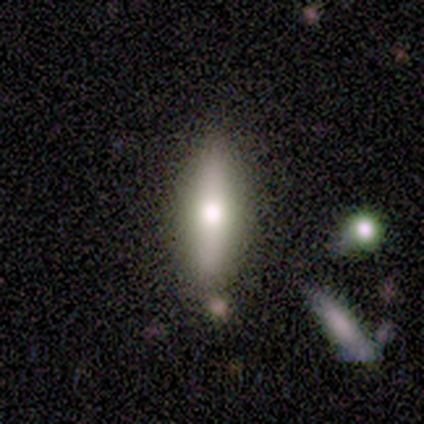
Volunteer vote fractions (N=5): smooth-or-featured: featured or disk: 60% | smooth: 40% | star or artifact: 0%
  disk-edge-on: yes: 100% | no: 0%
    edge-on-bulge: rounded: 100% | boxy: 0% | none: 0%
  merging: none: 80% | minor disturbance: 20% | major disturbance: 0% | merger: 0%